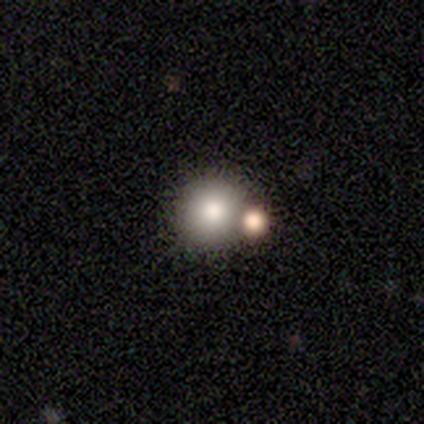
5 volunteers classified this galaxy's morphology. Smooth or featured?
  - smooth: 80% *
  - star or artifact: 20%
  - featured or disk: 0%
How rounded?
  - round: 100% *
  - in between: 0%
  - cigar-shaped: 0%
Merging?
  - none: 50% * (tied)
  - merger: 50% * (tied)
  - minor disturbance: 0%
  - major disturbance: 0%